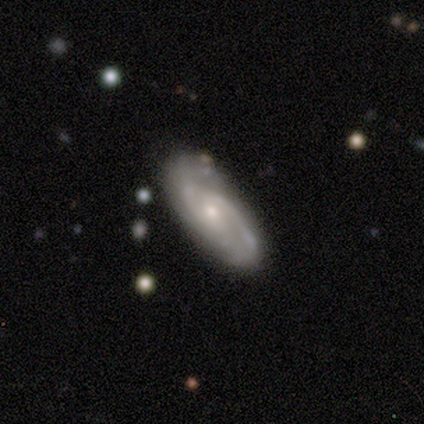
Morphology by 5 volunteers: Q: Smooth or featured?
A: featured or disk (80%); runner-up: smooth (20%)
Q: Edge-on disk?
A: no (100%)
Q: Bar?
A: no (100%)
Q: Spiral arms?
A: yes (100%)
Q: Spiral winding?
A: tight (75%); runner-up: medium (25%)
Q: Spiral arm count?
A: 2 (25%); tied with: 3 (25%); 4 (25%); can't tell (25%)
Q: Bulge size?
A: small (75%); runner-up: moderate (25%)
Q: Merging?
A: none (80%); runner-up: minor disturbance (20%)